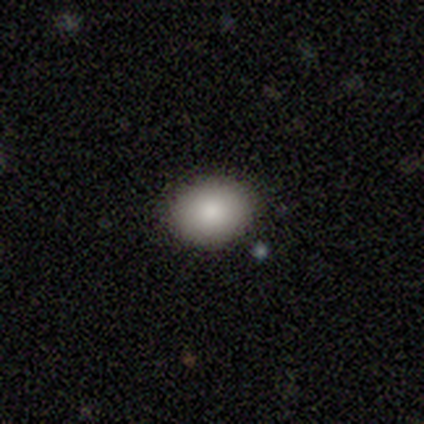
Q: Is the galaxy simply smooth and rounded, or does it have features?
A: smooth — 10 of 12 (83%).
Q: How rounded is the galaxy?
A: in between — 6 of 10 (60%).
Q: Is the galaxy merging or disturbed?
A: none — 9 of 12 (75%).